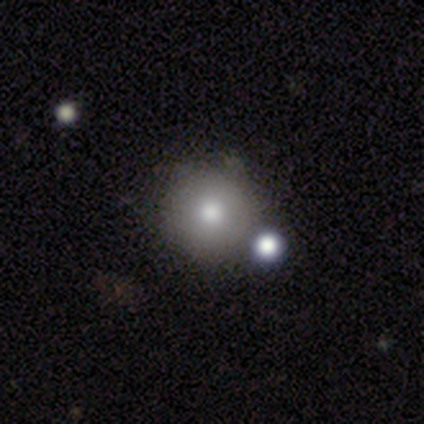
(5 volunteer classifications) A smooth galaxy with no disk features (60%) that is round (100%). Merging: none (75%).